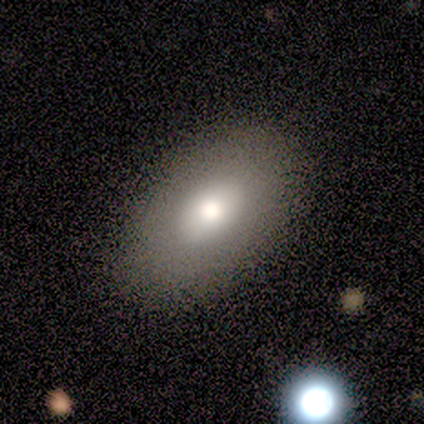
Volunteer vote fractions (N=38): Q: Smooth or featured?
A: smooth (76%); runner-up: featured or disk (18%)
Q: How rounded?
A: in between (97%); runner-up: round (3%)
Q: Merging?
A: none (56%); runner-up: merger (6%)